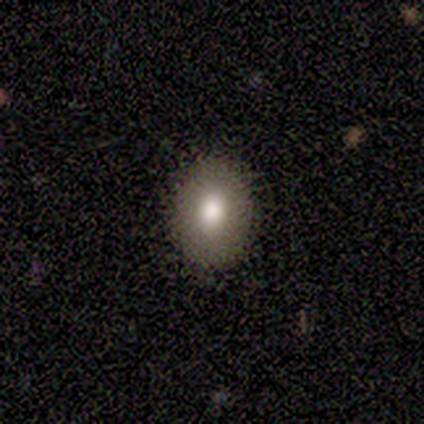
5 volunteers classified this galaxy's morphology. This is clearly a smooth galaxy (80%). How rounded: likely in between (75%). Merging: likely none (75%).